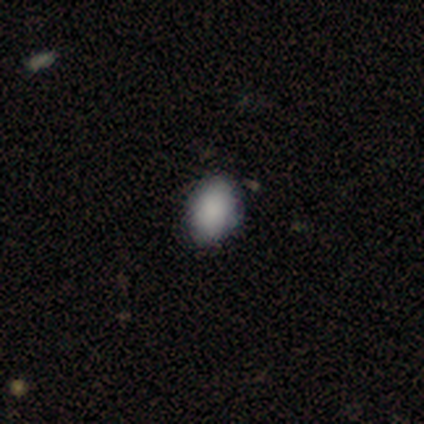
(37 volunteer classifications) Q: Smooth or featured?
A: smooth (81%); runner-up: star or artifact (16%)
Q: How rounded?
A: in between (97%); runner-up: round (3%)
Q: Merging?
A: none (77%); runner-up: minor disturbance (23%)